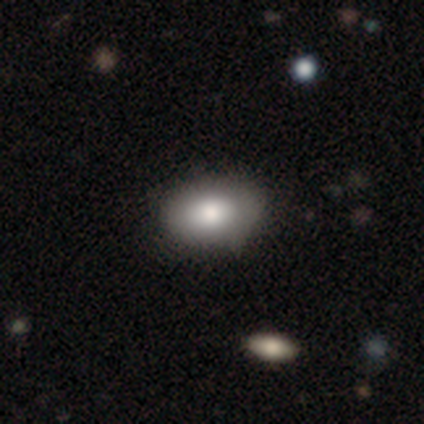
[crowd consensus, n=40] Smooth or featured? smooth (85%)
How rounded? in between (91%)
Merging? none (54%)